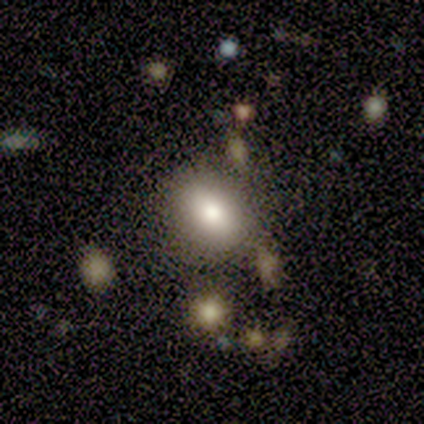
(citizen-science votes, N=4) Overall: smooth (75%). How rounded: in between (100%). Merging: none (100%).